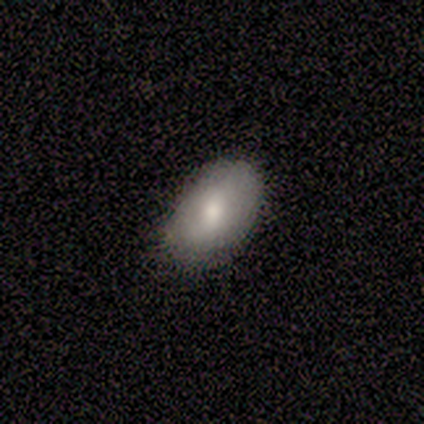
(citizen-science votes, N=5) Smooth or featured?
  - smooth: 80% *
  - featured or disk: 20%
  - star or artifact: 0%
How rounded?
  - in between: 100% *
  - round: 0%
  - cigar-shaped: 0%
Merging?
  - none: 80% *
  - minor disturbance: 20%
  - major disturbance: 0%
  - merger: 0%